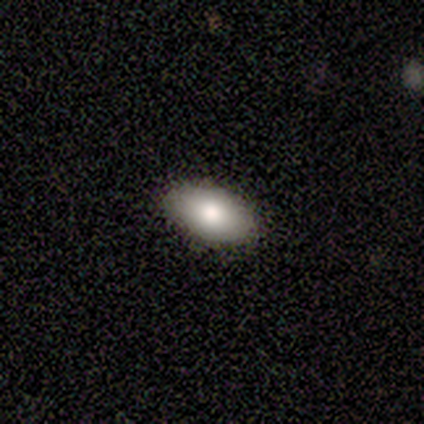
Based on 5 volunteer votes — Q: Smooth or featured?
A: smooth (100%)
Q: How rounded?
A: in between (100%)
Q: Merging?
A: none (80%); runner-up: major disturbance (20%)